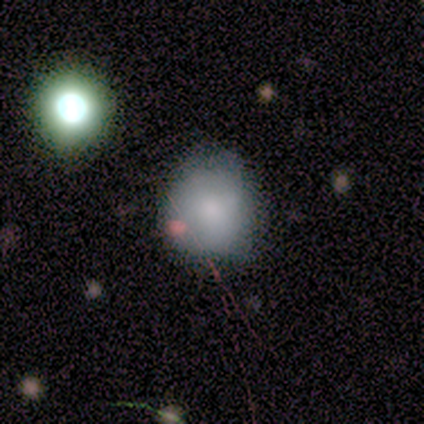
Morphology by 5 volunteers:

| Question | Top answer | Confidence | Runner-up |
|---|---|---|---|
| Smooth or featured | smooth | 80% | featured or disk (20%) |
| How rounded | round | 50% | tied: cigar-shaped (50%) |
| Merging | none | 60% | major disturbance (40%) |